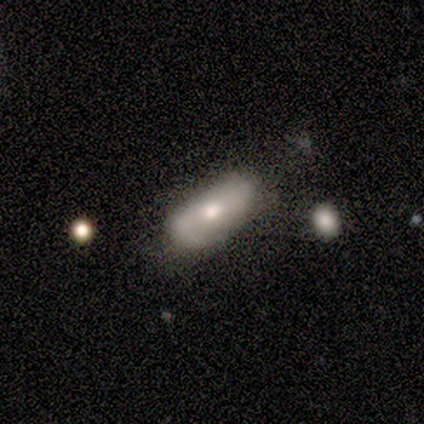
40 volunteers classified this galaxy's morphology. Volunteers were most divided on "smooth or featured": smooth: 48%, featured or disk: 38%, star or artifact: 15%. More confident: how rounded — in between (84%); merging — minor disturbance (50%).